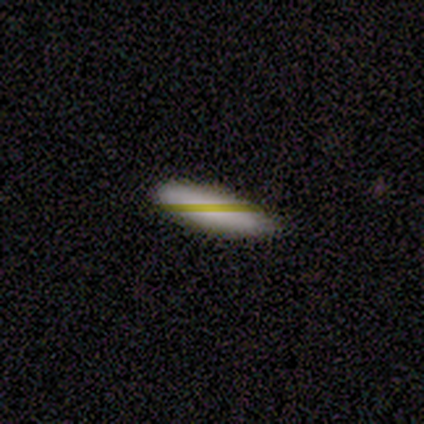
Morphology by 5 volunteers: This appears to be a smooth galaxy with no disk features (40%, tied with star or artifact) that is in between round and cigar-shaped (50%, tied with cigar-shaped). Merging: none (67%).